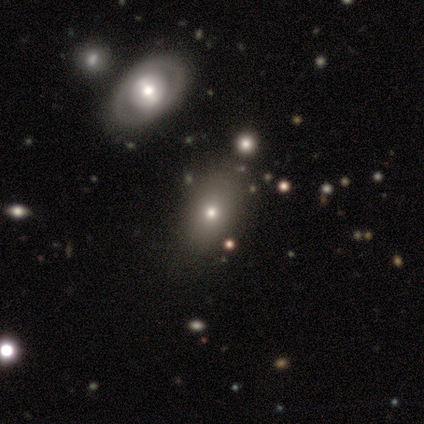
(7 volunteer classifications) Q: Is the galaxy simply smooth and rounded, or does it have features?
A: smooth — 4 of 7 (57%).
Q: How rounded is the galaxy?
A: in between — 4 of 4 (100%).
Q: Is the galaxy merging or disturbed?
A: none — 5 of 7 (71%).